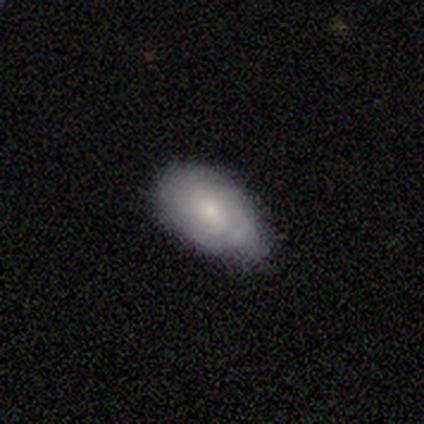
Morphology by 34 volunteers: This appears to be a smooth galaxy with no disk features (68%) that is in between round and cigar-shaped (91%). Merging: minor disturbance (52%).